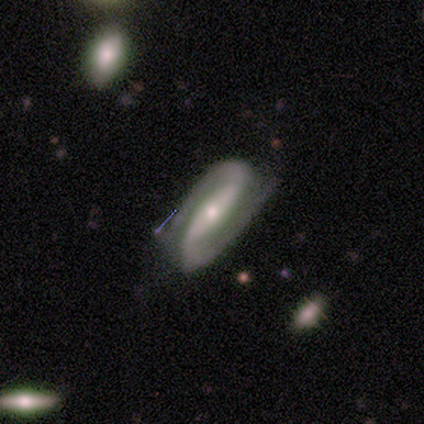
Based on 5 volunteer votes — Volunteers were most divided on "bulge size": small: 60%, moderate: 40%, dominant: 0%, large: 0%, none: 0%. More confident: smooth or featured — featured or disk (100%); edge-on disk — no (100%); spiral arms — yes (100%); spiral arm count — 2 (100%); bar — strong (80%); spiral winding — medium (80%); merging — none (80%).